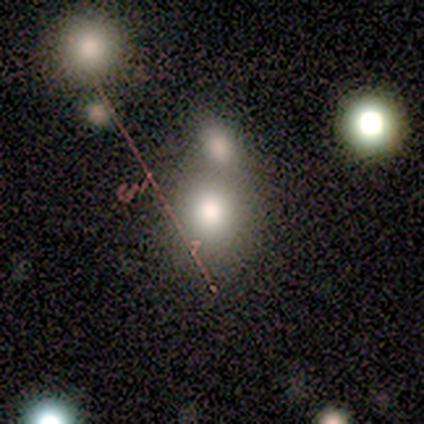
Smooth or featured? 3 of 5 (60%) said smooth. How rounded? 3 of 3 (100%) said round. Merging? 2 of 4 (50%, tied with merger) said none.